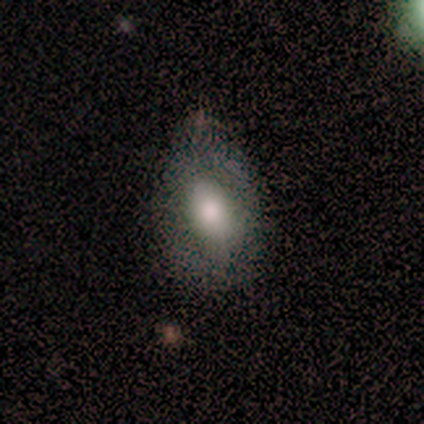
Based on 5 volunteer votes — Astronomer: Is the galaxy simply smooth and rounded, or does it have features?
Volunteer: smooth — 80%.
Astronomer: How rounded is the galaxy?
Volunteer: in between — 75%.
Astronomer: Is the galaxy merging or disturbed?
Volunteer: none — 80%.